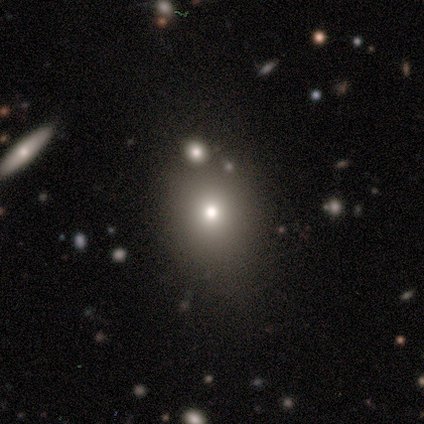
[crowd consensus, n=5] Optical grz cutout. It shows a smooth galaxy with no disk features (80%) that is round (50%, tied with in between). Merging: none (60%).